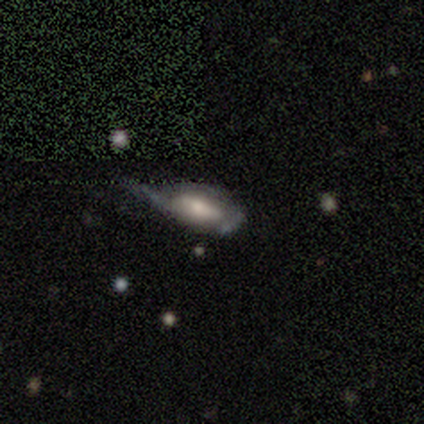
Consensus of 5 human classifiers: Smooth or featured?
  - featured or disk: 80% *
  - smooth: 20%
  - star or artifact: 0%
Edge-on disk?
  - no: 100% *
  - yes: 0%
Bar?
  - weak: 50% *
  - strong: 25%
  - no: 25%
Spiral arms?
  - yes: 50% * (tied)
  - no: 50% * (tied)
Spiral winding?
  - tight: 50% * (tied)
  - loose: 50% * (tied)
  - medium: 0%
Spiral arm count?
  - 2: 50% * (tied)
  - can't tell: 50% * (tied)
  - 1: 0%
  - 3: 0%
  - 4: 0%
  - more than 4: 0%
Bulge size?
  - moderate: 50% *
  - large: 25%
  - small: 25%
  - dominant: 0%
  - none: 0%
Merging?
  - minor disturbance: 40% * (tied)
  - major disturbance: 40% * (tied)
  - none: 20%
  - merger: 0%